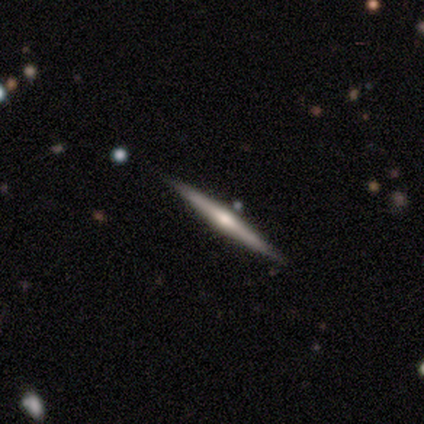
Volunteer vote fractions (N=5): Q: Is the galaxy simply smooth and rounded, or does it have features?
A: featured or disk — 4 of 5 (80%).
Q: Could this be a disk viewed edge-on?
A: yes — 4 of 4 (100%).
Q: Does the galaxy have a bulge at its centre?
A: rounded — 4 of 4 (100%).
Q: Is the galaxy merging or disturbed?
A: none — 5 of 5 (100%).